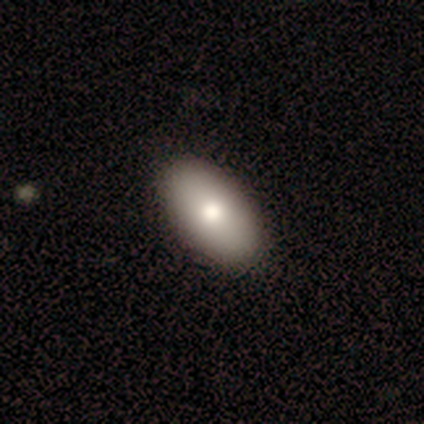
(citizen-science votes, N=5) smooth-or-featured: smooth: 80% | featured or disk: 20% | star or artifact: 0%
  how-rounded: in between: 100% | round: 0% | cigar-shaped: 0%
  merging: none: 80% | merger: 20% | minor disturbance: 0% | major disturbance: 0%